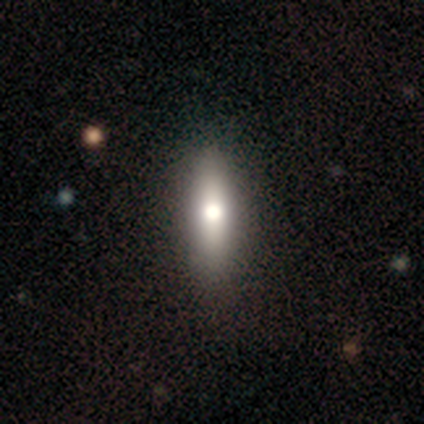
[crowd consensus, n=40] smooth-or-featured: smooth: 50% | featured or disk: 40% | star or artifact: 10%
  how-rounded: cigar-shaped: 55% | in between: 40% | round: 5%
  merging: none: 53% | minor disturbance: 6% | major disturbance: 0% | merger: 0%